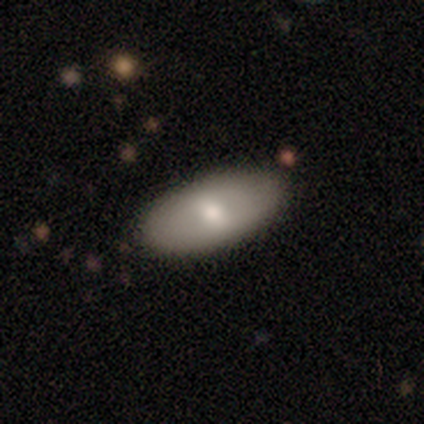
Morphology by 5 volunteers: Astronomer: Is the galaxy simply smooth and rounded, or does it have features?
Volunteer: smooth — 80%.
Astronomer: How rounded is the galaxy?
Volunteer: in between — 100%.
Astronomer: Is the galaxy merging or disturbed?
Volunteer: none — 100%.